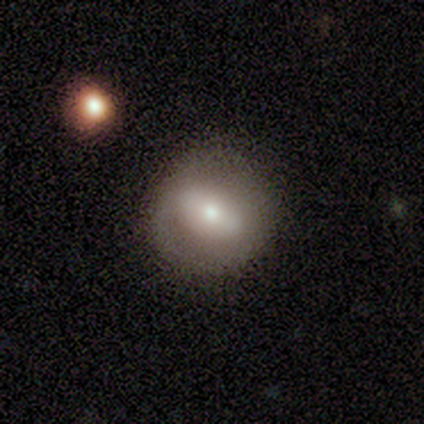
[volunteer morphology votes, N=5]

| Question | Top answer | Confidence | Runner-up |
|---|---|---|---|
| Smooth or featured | featured or disk | 60% | smooth (40%) |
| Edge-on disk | no | 100% | — |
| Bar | strong | 33% | tied: weak (33%), no (33%) |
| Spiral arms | no | 67% | yes (33%) |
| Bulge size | moderate | 100% | — |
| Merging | none | 100% | — |